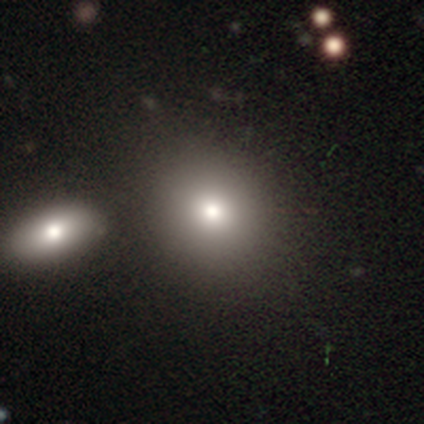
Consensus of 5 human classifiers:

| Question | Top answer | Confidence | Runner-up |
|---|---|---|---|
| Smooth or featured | smooth | 80% | star or artifact (20%) |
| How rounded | round | 50% | tied: in between (50%) |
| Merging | none | 75% | merger (25%) |